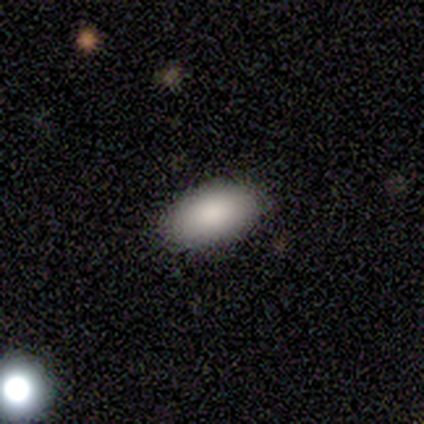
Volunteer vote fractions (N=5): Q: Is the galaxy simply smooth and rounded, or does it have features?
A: smooth — 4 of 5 (80%).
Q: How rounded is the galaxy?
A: in between — 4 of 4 (100%).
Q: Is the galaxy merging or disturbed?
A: none — 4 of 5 (80%).